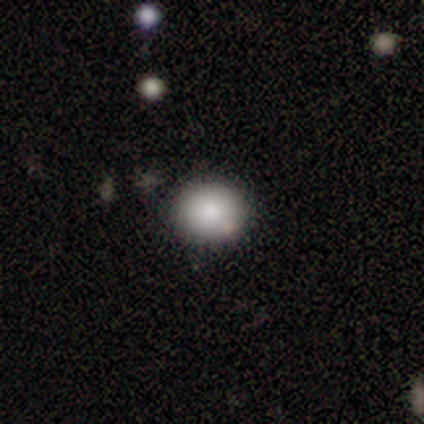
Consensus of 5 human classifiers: A smooth galaxy with no disk features (100%) that is round (100%). Merging: none (80%).